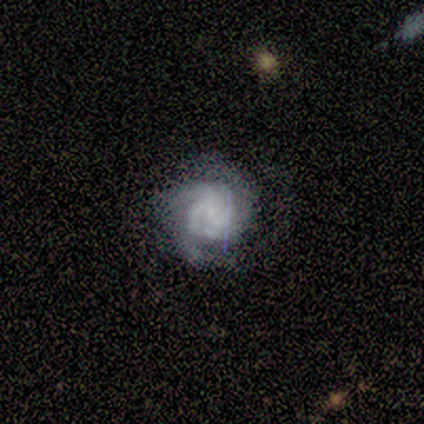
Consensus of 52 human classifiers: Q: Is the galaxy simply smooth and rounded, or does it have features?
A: featured or disk — 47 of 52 (90%).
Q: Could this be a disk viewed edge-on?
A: no — 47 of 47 (100%).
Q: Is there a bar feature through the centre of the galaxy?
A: no — 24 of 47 (51%).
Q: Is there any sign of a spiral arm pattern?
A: yes — 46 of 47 (98%).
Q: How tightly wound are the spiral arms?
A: tight — 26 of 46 (57%).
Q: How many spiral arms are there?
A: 3 — 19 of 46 (41%).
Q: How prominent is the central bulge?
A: small — 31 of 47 (66%).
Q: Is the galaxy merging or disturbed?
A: none — 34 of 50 (68%).